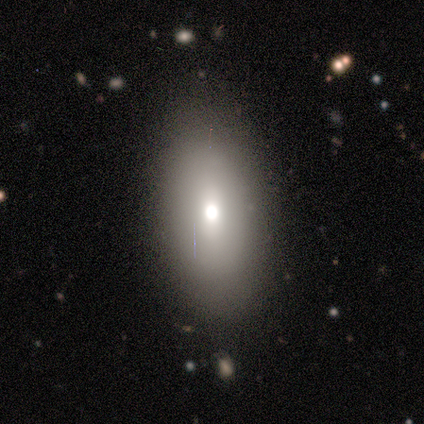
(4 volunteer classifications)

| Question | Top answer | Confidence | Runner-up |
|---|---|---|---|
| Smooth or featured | smooth | 50% | tied: featured or disk (50%) |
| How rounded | round | 50% | tied: in between (50%) |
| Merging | none | 75% | minor disturbance (25%) |